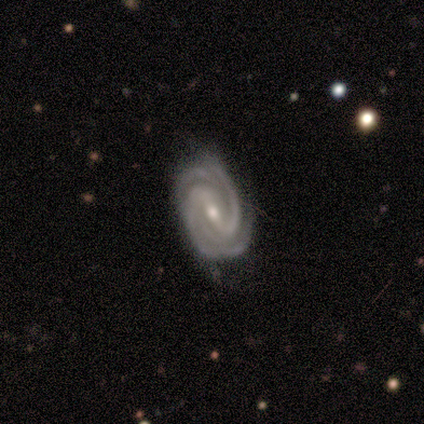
Smooth or featured?
  - featured or disk: 100% *
  - smooth: 0%
  - star or artifact: 0%
Edge-on disk?
  - no: 100% *
  - yes: 0%
Bar?
  - weak: 62% *
  - strong: 25%
  - no: 12%
Spiral arms?
  - yes: 100% *
  - no: 0%
Spiral winding?
  - tight: 88% *
  - loose: 12%
  - medium: 0%
Spiral arm count?
  - 2: 50% *
  - 4: 25%
  - 3: 12%
  - more than 4: 12%
  - 1: 0%
  - can't tell: 0%
Bulge size?
  - moderate: 75% *
  - small: 25%
  - dominant: 0%
  - large: 0%
  - none: 0%
Merging?
  - none: 88% *
  - minor disturbance: 12%
  - major disturbance: 0%
  - merger: 0%